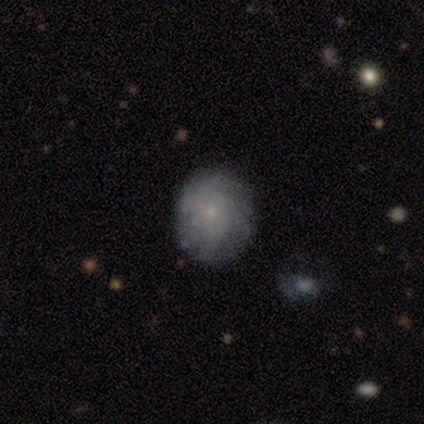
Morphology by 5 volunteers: smooth 80%, featured or disk 20%, star or artifact 0%. Down the decision tree: how rounded — round (75%); merging — none (100%).